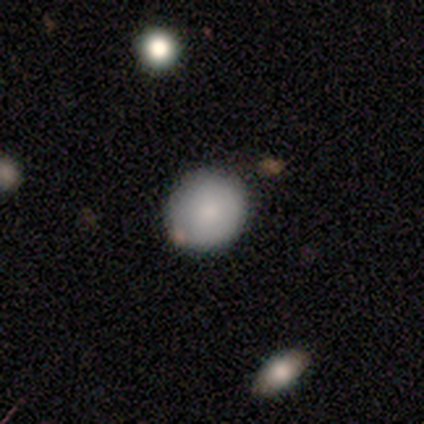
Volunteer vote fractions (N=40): This appears to be a smooth galaxy with no disk features (90%) that is round (89%). Merging: none (82%).